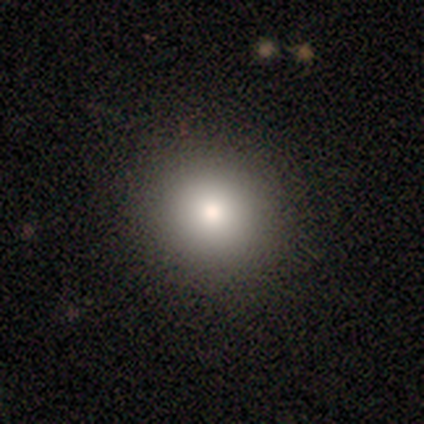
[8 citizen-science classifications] Smooth or featured: smooth — 62% (star or artifact — 25%)
How rounded: round — 100%
Merging: none — 100%